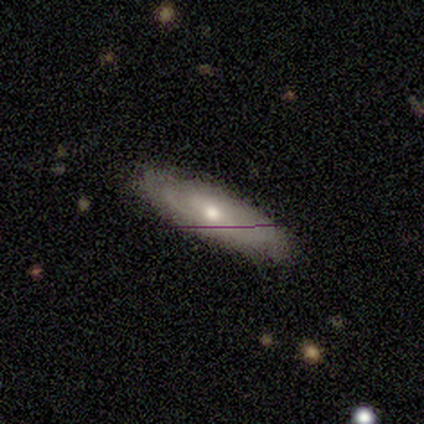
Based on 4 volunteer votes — smooth-or-featured: featured or disk: 100% | smooth: 0% | star or artifact: 0%
  disk-edge-on: no: 75% | yes: 25%
    bar: no: 67% | weak: 33% | strong: 0%
    has-spiral-arms: no: 67% | yes: 33%
    bulge-size: moderate: 67% | small: 33% | dominant: 0% | large: 0% | none: 0%
  merging: none: 100% | minor disturbance: 0% | major disturbance: 0% | merger: 0%